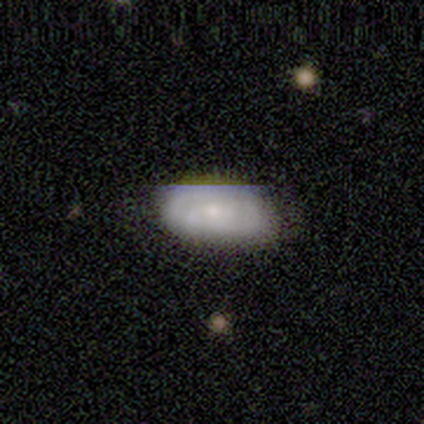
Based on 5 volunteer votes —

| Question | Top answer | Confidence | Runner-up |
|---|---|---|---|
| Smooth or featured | smooth | 40% | tied: featured or disk (40%) |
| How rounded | in between | 100% | — |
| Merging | none | 50% | tied: major disturbance (50%) |